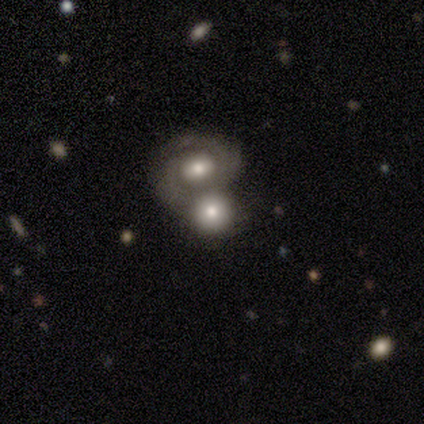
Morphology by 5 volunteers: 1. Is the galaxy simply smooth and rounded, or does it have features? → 60% featured or disk, 20% smooth, 20% star or artifact.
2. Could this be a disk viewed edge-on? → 100% no, 0% yes.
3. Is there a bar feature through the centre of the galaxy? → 67% no, 33% weak, 0% strong.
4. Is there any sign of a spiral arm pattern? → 67% no, 33% yes.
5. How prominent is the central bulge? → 100% moderate, 0% dominant, 0% large, 0% small, 0% none.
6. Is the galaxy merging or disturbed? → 75% merger, 25% minor disturbance, 0% none, 0% major disturbance.